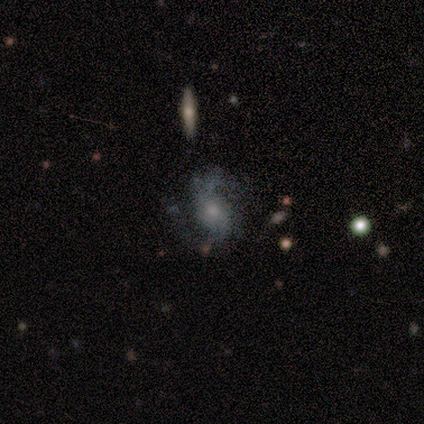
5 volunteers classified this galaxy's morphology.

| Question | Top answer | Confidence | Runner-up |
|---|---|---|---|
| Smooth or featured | featured or disk | 60% | smooth (20%) |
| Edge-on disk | no | 100% | — |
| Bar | no | 100% | — |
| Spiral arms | yes | 100% | — |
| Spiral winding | medium | 100% | — |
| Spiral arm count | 2 | 100% | — |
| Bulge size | moderate | 67% | small (33%) |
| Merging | minor disturbance | 75% | none (25%) |